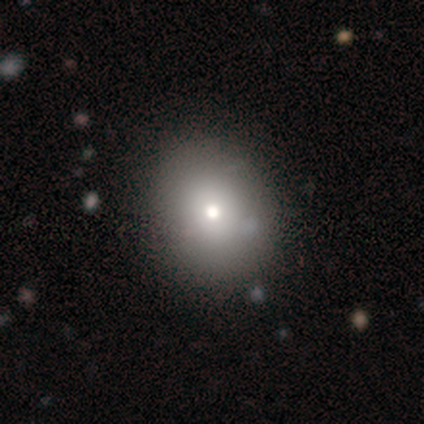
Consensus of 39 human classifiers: This appears to be a smooth galaxy with no disk features (79%) that is in between round and cigar-shaped (52%). Merging: none (68%).